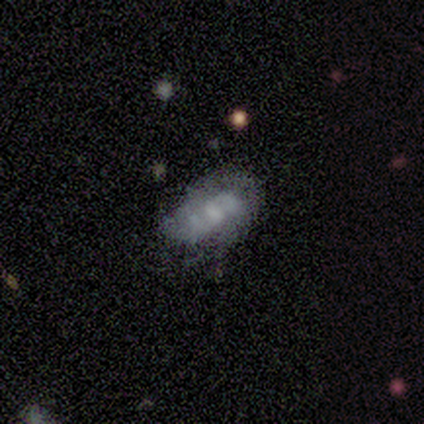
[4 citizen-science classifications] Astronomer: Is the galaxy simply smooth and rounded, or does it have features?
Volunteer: featured or disk — 75%.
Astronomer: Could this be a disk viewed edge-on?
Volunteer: no — 100%.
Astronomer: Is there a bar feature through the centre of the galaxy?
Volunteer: weak — 100%.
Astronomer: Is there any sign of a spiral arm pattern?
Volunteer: yes — 100%.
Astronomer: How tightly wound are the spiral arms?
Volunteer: tight — 33%, tied with medium and loose at 33%.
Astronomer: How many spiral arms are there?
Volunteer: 2 — 33%, tied with more than 4 and can't tell at 33%.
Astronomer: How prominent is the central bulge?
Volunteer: large — 33%, tied with moderate and small at 33%.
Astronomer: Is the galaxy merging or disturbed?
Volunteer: none — 67%.